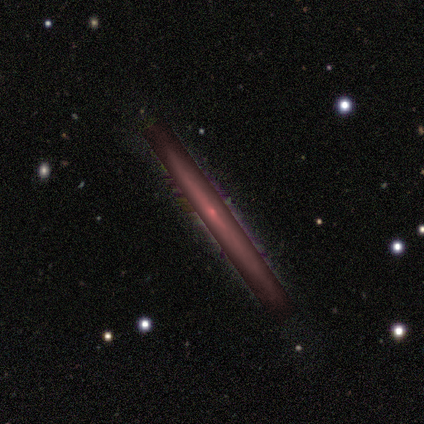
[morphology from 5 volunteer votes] featured or disk 60%, star or artifact 40%, smooth 0%. Down the decision tree: edge-on disk — yes (100%); edge-on bulge — rounded (100%); merging — none (67%).